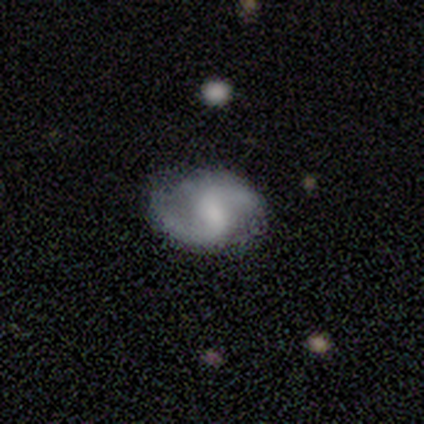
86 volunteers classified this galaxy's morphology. featured or disk 87%, smooth 7%, star or artifact 6%. Down the decision tree: edge-on disk — no (96%); bar — weak (44%); spiral arms — yes (92%); spiral arm count — 2 (95%); spiral winding — loose (47%); bulge size — none (39%); merging — none (85%).